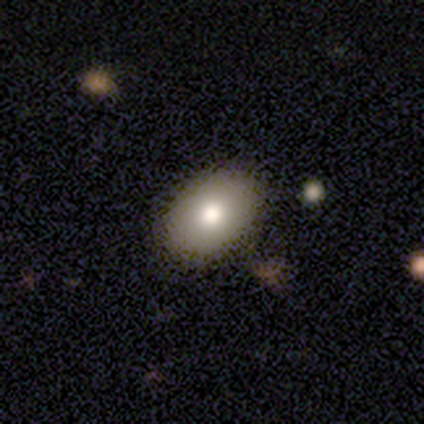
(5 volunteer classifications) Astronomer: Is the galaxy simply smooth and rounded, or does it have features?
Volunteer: smooth — 100%.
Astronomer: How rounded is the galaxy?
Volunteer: in between — 100%.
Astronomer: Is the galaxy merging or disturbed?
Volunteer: none — 100%.